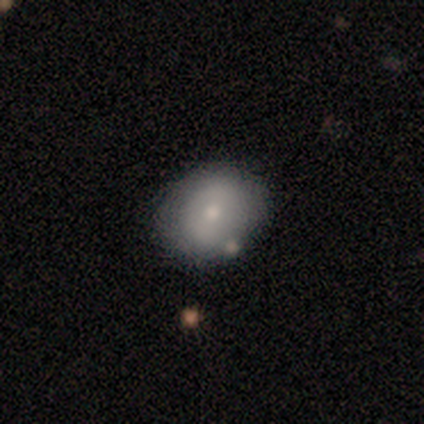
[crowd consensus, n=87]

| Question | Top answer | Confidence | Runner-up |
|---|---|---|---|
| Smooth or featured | smooth | 71% | featured or disk (28%) |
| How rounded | in between | 52% | round (48%) |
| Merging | none | 83% | minor disturbance (13%) |